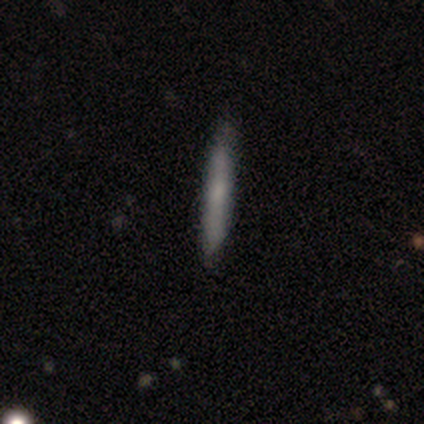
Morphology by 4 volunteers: Smooth or featured? 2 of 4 (50%) said featured or disk. Edge-on disk? 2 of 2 (100%) said yes. Edge-on bulge? 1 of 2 (50%, tied with rounded) said none. Merging? 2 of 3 (67%) said none.